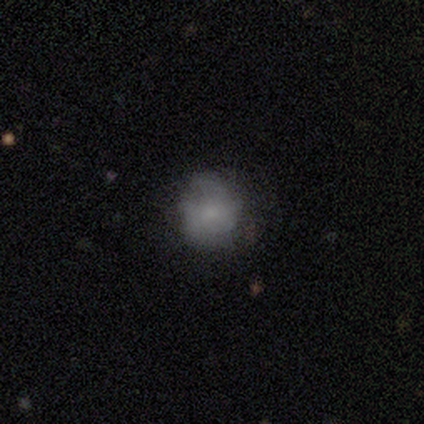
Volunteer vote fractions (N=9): smooth-or-featured: smooth: 56% | featured or disk: 44% | star or artifact: 0%
  how-rounded: round: 80% | in between: 20% | cigar-shaped: 0%
  merging: none: 67% | minor disturbance: 22% | major disturbance: 11% | merger: 0%